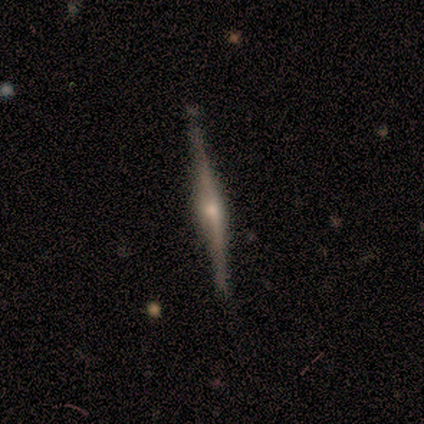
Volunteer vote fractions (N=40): Morphology: type=featured or disk (98%); edge-on=yes (100%); edge-on bulge=rounded (97%); merging=none (52%).